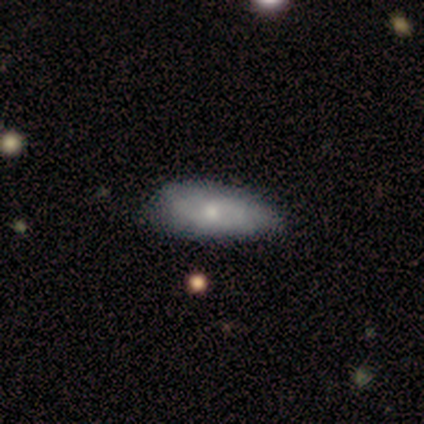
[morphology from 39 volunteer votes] A smooth galaxy with no disk features (54%) that is in between round and cigar-shaped (90%).

Vote fractions:
- Smooth or featured? smooth: 54% / featured or disk: 36% / star or artifact: 10%
- How rounded? in between: 90% / cigar-shaped: 10% / round: 0%
- Merging? none: 40% / minor disturbance: 26% / major disturbance: 3% / merger: 3%